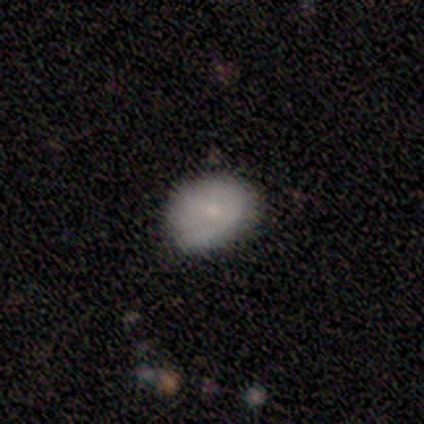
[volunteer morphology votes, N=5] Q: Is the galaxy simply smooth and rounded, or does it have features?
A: featured or disk — 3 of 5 (60%).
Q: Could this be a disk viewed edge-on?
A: no — 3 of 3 (100%).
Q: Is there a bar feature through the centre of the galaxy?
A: strong — 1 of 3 (33%, tied with weak and no).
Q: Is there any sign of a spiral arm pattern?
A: no — 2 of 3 (67%).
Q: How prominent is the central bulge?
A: small — 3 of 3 (100%).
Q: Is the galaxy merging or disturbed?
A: none — 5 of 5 (100%).